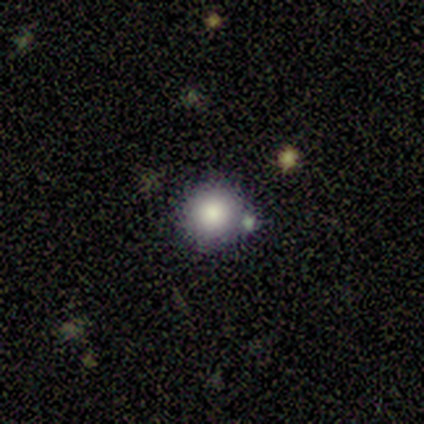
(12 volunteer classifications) Smooth or featured: smooth — 83% (featured or disk — 8%)
How rounded: round — 100%
Merging: none — 73% (minor disturbance — 9%)